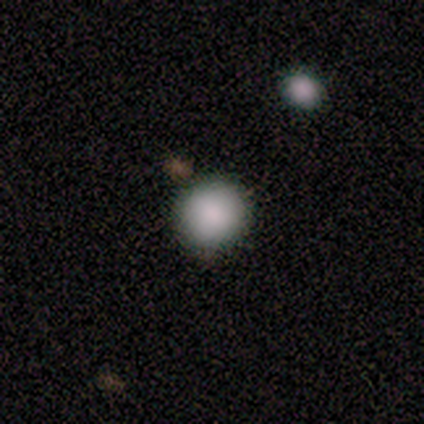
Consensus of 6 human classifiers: This appears to be a smooth galaxy with no disk features (83%) that is round (100%). Merging: none (100%).